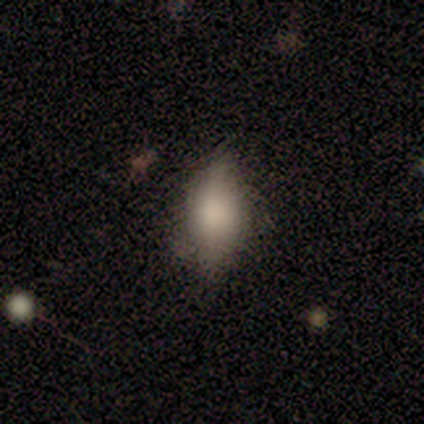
smooth-or-featured: smooth: 86% | featured or disk: 14% | star or artifact: 0%
  how-rounded: in between: 83% | round: 17% | cigar-shaped: 0%
  merging: none: 57% | minor disturbance: 43% | major disturbance: 0% | merger: 0%